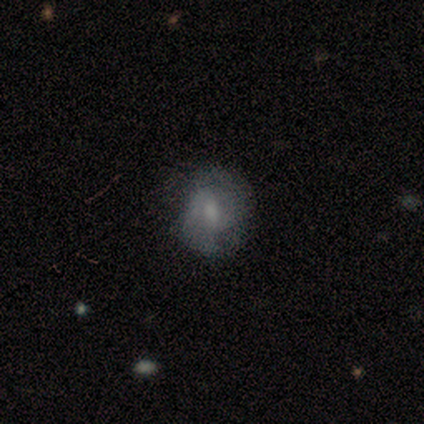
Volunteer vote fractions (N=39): A smooth galaxy with no disk features (51%) that is round (75%). Merging: none (69%).